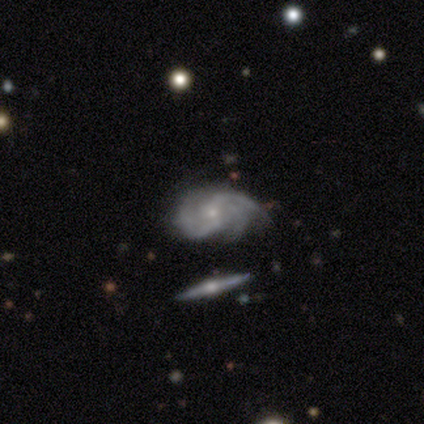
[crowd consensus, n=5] A featured or disk galaxy (100%) with no bar (75%), 3 (50%) medium (75%) spiral arms (100%) and a small central bulge (100%).

Vote fractions:
- Smooth or featured? featured or disk: 100% / smooth: 0% / star or artifact: 0%
- Edge-on disk? no: 80% / yes: 20%
- Bar? no: 75% / weak: 25% / strong: 0%
- Spiral arms? yes: 100% / no: 0%
- Spiral winding? medium: 75% / loose: 25% / tight: 0%
- Spiral arm count? 3: 50% / 2: 25% / can't tell: 25% / 1: 0% / 4: 0% / more than 4: 0%
- Bulge size? small: 100% / dominant: 0% / large: 0% / moderate: 0% / none: 0%
- Merging? none: 60% / minor disturbance: 40% / major disturbance: 0% / merger: 0%